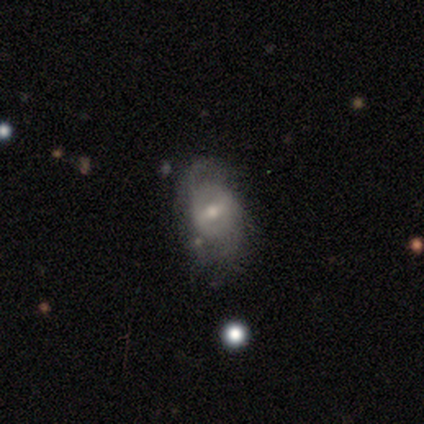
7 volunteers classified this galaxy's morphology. Q: Smooth or featured?
A: featured or disk (71%); runner-up: smooth (29%)
Q: Edge-on disk?
A: no (100%)
Q: Bar?
A: strong (60%); runner-up: weak (40%)
Q: Spiral arms?
A: yes (80%); runner-up: no (20%)
Q: Spiral winding?
A: tight (50%); tied with: loose (50%)
Q: Spiral arm count?
A: 2 (75%); runner-up: 1 (25%)
Q: Bulge size?
A: moderate (60%); runner-up: small (40%)
Q: Merging?
A: none (57%); runner-up: major disturbance (43%)